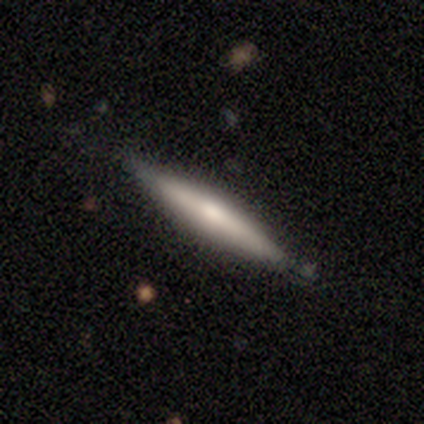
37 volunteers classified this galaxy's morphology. A featured or disk galaxy (54%) viewed edge-on (95%) with a rounded central bulge (89%). Merging: none (78%).